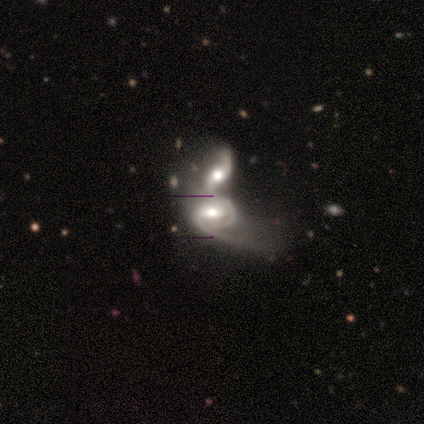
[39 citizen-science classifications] Overall: featured or disk (82%). Edge-on disk: no (91%). Bar: weak (62%; strong 28%). Spiral arms: yes (100%). Spiral arm count: 2 (66%; can't tell 28%). Spiral winding: medium (52%; loose 31%). Bulge size: moderate (66%). Merging: merger (86%).